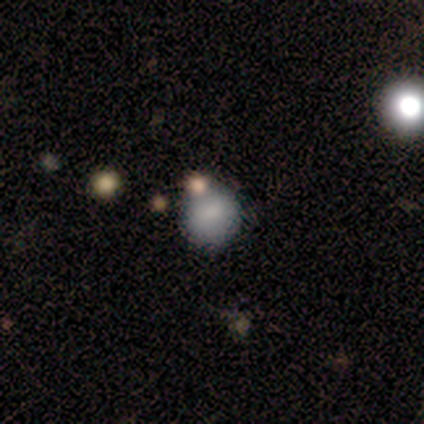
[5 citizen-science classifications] Smooth or featured: smooth — 80% (featured or disk — 20%)
How rounded: round — 100%
Merging: none — 80% (merger — 20%)